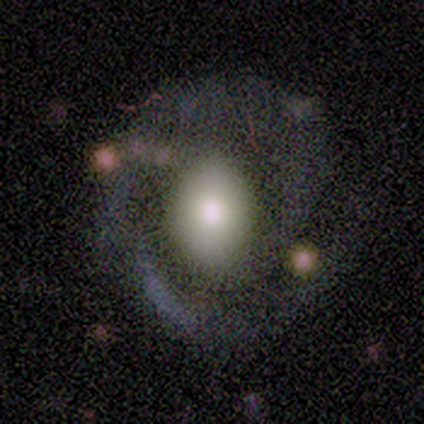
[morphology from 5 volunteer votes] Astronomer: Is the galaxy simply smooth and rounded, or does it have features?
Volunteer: featured or disk — 80%.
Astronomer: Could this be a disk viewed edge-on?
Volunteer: no — 100%.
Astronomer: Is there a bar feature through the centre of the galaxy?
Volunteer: weak — 50%, tied with no at 50%.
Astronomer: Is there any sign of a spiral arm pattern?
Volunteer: yes — 50%, tied with no at 50%.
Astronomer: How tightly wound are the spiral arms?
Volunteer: medium — 50%, tied with loose at 50%.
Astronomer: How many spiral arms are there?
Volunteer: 2 — 100%.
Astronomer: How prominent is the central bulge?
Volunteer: large — 100%.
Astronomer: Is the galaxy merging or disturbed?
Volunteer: minor disturbance — 80%.